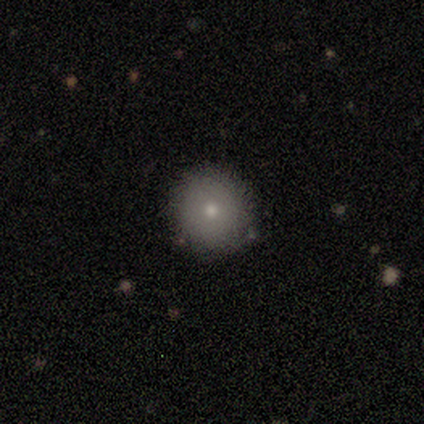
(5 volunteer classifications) Morphology: type=smooth (100%); roundness=round (100%); merging=none (80%).